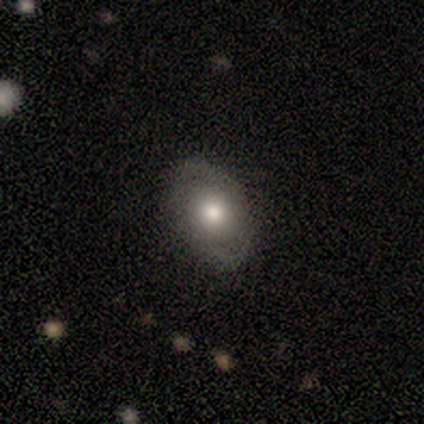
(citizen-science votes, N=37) Volunteers were most divided on "smooth or featured": smooth: 49%, featured or disk: 43%, star or artifact: 8%. More confident: how rounded — in between (83%); merging — none (82%).